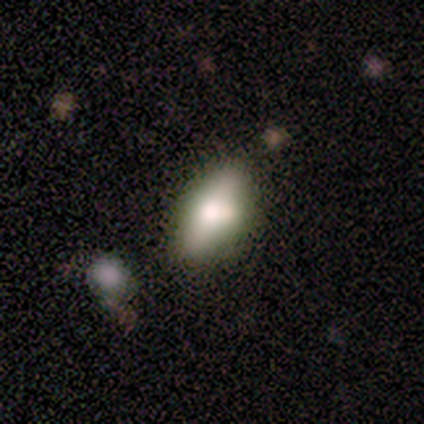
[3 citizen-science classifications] Overall: featured or disk (67%; star or artifact 33%). Edge-on disk: yes (50%, tied with no). Edge-on bulge: rounded (100%). Merging: none (50%, tied with merger).